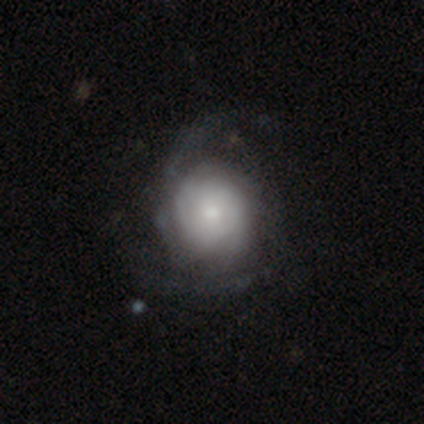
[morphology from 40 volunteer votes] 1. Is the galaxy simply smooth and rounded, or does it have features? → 62% featured or disk, 38% smooth, 0% star or artifact.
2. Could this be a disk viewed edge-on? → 100% no, 0% yes.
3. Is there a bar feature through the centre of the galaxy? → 76% no, 20% weak, 4% strong.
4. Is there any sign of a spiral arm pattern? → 92% yes, 8% no.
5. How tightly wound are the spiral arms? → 48% tight, 35% medium, 17% loose.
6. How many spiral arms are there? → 52% can't tell, 30% 2, 13% 3, 4% 1, 0% 4, 0% more than 4.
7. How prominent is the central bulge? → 44% small, 28% moderate, 20% large, 4% dominant, 4% none.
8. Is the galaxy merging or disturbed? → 48% none, 20% minor disturbance, 12% major disturbance, 0% merger.